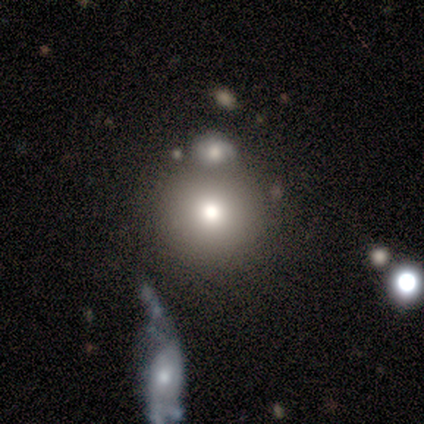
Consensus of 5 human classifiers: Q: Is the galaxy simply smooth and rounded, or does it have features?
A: star or artifact — 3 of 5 (60%).